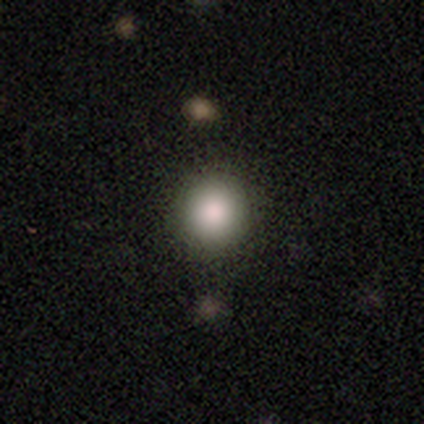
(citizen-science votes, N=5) Smooth or featured: smooth — 80% (star or artifact — 20%)
How rounded: round — 75% (in between — 25%)
Merging: none — 75% (minor disturbance — 25%)